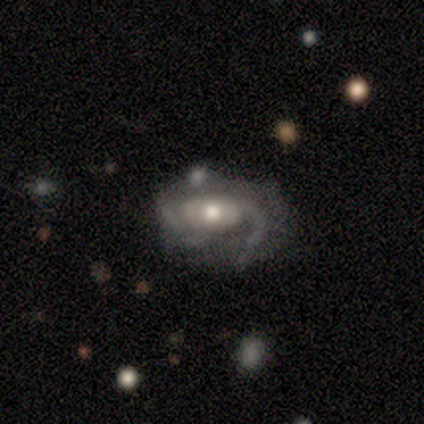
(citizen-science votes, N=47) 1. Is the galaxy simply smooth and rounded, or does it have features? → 87% featured or disk, 9% smooth, 4% star or artifact.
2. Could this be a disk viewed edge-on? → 98% no, 2% yes.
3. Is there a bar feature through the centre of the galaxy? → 78% no, 22% weak, 0% strong.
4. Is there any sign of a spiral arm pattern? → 88% yes, 12% no.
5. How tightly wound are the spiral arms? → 66% medium, 20% loose, 14% tight.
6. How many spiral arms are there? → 51% 2, 26% can't tell, 14% 1, 6% 3, 3% 4, 0% more than 4.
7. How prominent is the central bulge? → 75% moderate, 15% small, 10% large, 0% dominant, 0% none.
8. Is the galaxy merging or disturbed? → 38% minor disturbance, 33% none, 18% major disturbance, 11% merger.